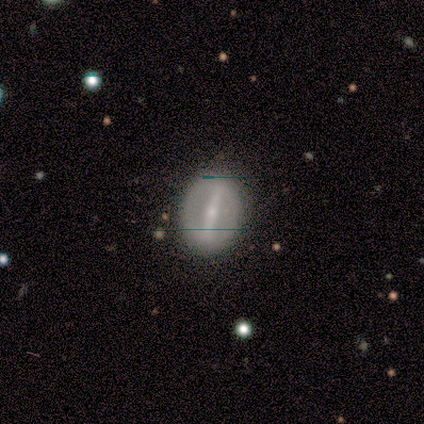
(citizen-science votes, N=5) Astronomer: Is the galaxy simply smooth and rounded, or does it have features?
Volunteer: featured or disk — 100%.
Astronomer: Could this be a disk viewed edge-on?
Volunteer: no — 100%.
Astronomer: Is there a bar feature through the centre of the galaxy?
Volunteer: strong — 60%.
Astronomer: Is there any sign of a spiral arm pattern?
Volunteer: no — 60% (runner-up: yes, 40%).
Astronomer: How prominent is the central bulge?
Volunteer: small — 80%.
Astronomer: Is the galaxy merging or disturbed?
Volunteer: none — 100%.